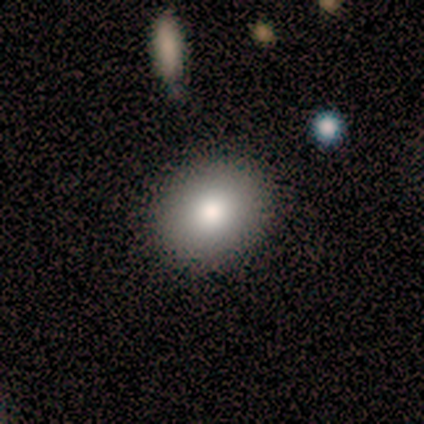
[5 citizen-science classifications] smooth_or_featured: smooth (p=1.00)
how_rounded: round (p=0.80) [alt: in between p=0.20]
merging: none (p=1.00)